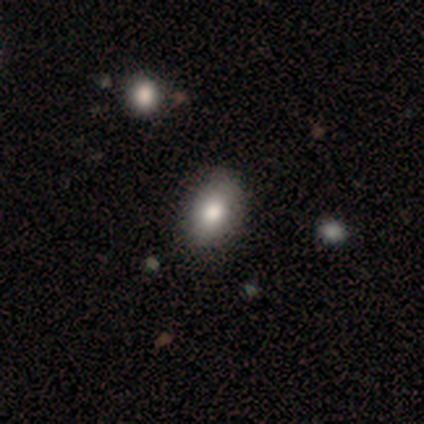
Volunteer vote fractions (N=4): Q: Smooth or featured?
A: featured or disk (50%); runner-up: smooth (25%)
Q: Edge-on disk?
A: no (100%)
Q: Bar?
A: strong (50%); tied with: no (50%)
Q: Spiral arms?
A: no (100%)
Q: Bulge size?
A: large (50%); tied with: moderate (50%)
Q: Merging?
A: none (67%); runner-up: merger (33%)